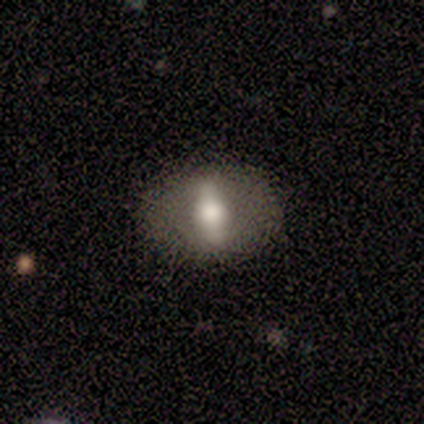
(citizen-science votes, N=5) smooth_or_featured: smooth (p=0.40) [tied with: featured or disk p=0.40]
how_rounded: in between (p=1.00)
merging: none (p=1.00)